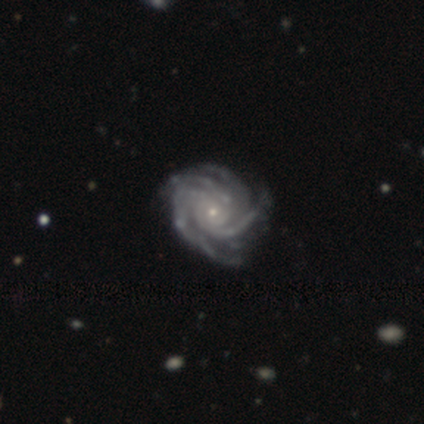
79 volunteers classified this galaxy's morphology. smooth_or_featured: featured or disk (p=0.92) [alt: smooth p=0.04]
disk_edge_on: no (p=0.96) [alt: yes p=0.04]
bar: no (p=0.83) [alt: weak p=0.11]
has_spiral_arms: yes (p=1.00)
spiral_winding: tight (p=0.80) [alt: medium p=0.16]
spiral_arm_count: 4 (p=0.54) [alt: can't tell p=0.17]
bulge_size: small (p=0.89) [alt: moderate p=0.11]
merging: none (p=0.34) [alt: minor disturbance p=0.16]